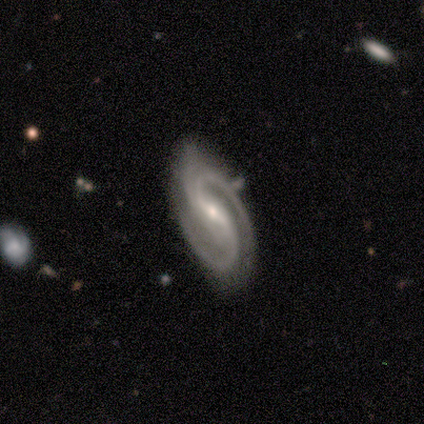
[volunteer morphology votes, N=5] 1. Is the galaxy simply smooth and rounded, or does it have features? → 100% featured or disk, 0% smooth, 0% star or artifact.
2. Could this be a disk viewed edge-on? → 100% no, 0% yes.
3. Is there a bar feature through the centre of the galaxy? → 60% strong, 40% weak, 0% no.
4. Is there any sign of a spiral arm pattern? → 100% yes, 0% no.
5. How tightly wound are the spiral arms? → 60% medium, 40% tight, 0% loose.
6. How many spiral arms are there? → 100% 2, 0% 1, 0% 3, 0% 4, 0% more than 4, 0% can't tell.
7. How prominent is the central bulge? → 60% moderate, 40% small, 0% dominant, 0% large, 0% none.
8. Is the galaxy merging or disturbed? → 60% none, 40% minor disturbance, 0% major disturbance, 0% merger.